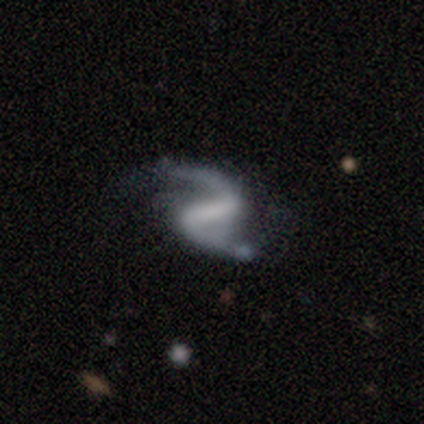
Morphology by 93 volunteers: featured or disk 94%, smooth 4%, star or artifact 2%. Down the decision tree: edge-on disk — no (100%); bar — strong (71%); spiral arms — yes (97%); spiral arm count — 2 (96%); spiral winding — loose (70%); bulge size — none (63%); merging — none (55%).